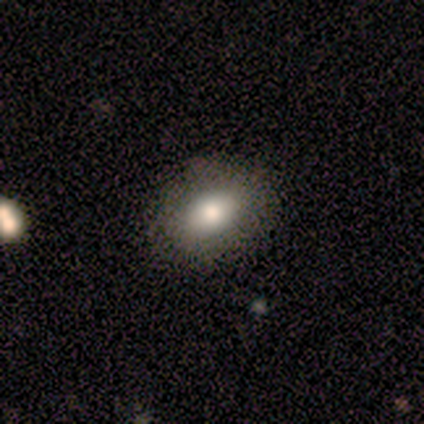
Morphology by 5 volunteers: Q: Smooth or featured?
A: smooth (100%)
Q: How rounded?
A: in between (60%); runner-up: round (40%)
Q: Merging?
A: none (100%)